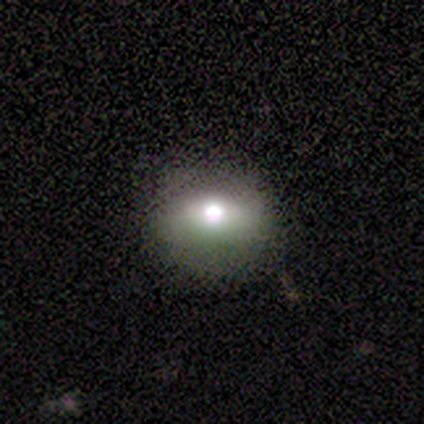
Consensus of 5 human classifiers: featured or disk 40% (tied), star or artifact 40% (tied), smooth 20%. Down the decision tree: edge-on disk — yes (50%, tied with no); edge-on bulge — rounded (100%); merging — none (100%).